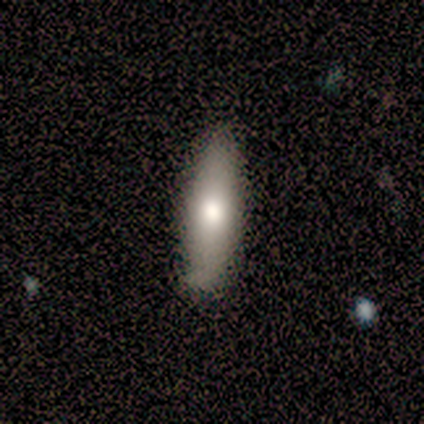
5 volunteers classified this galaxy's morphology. Smooth or featured?
  - smooth: 100% *
  - featured or disk: 0%
  - star or artifact: 0%
How rounded?
  - cigar-shaped: 80% *
  - in between: 20%
  - round: 0%
Merging?
  - none: 100% *
  - minor disturbance: 0%
  - major disturbance: 0%
  - merger: 0%